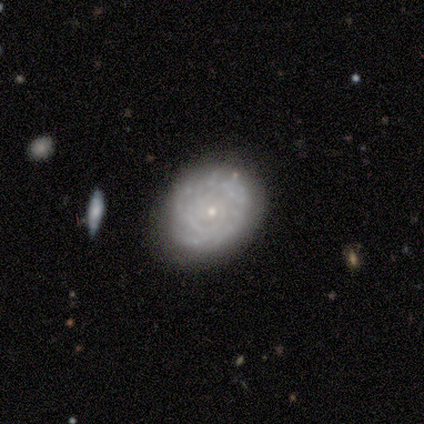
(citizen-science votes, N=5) Q: Smooth or featured?
A: featured or disk (100%)
Q: Edge-on disk?
A: no (100%)
Q: Bar?
A: no (100%)
Q: Spiral arms?
A: no (60%); runner-up: yes (40%)
Q: Bulge size?
A: small (100%)
Q: Merging?
A: none (100%)